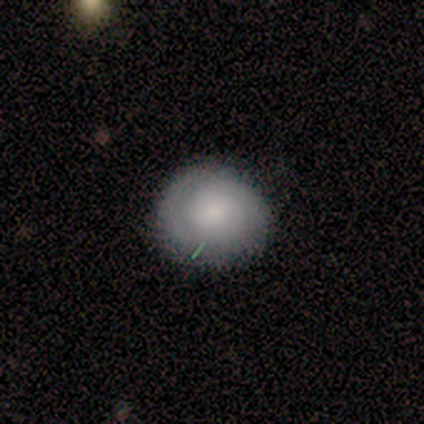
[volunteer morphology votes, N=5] A smooth galaxy with no disk features (60%) that is round (100%). Merging: none (100%).